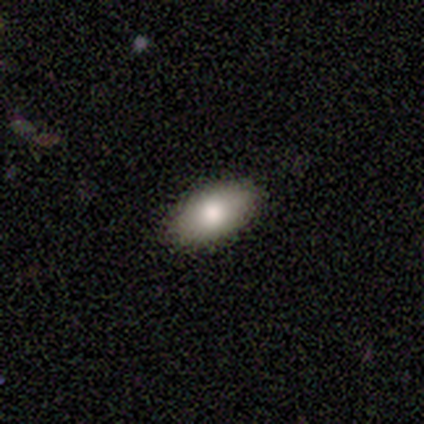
A smooth galaxy with no disk features (74%) that is in between round and cigar-shaped (93%). Merging: none (97%).